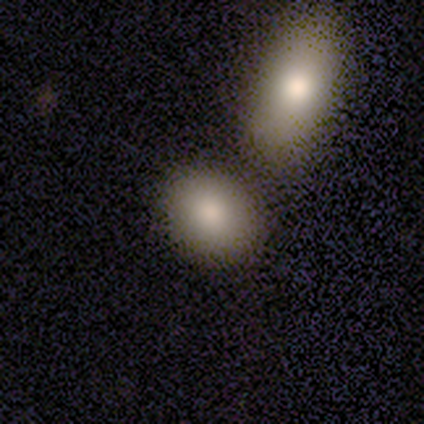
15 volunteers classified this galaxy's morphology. Smooth or featured?
  - smooth: 93% *
  - featured or disk: 7%
  - star or artifact: 0%
How rounded?
  - round: 64% *
  - in between: 36%
  - cigar-shaped: 0%
Merging?
  - none: 80% *
  - merger: 13%
  - minor disturbance: 7%
  - major disturbance: 0%